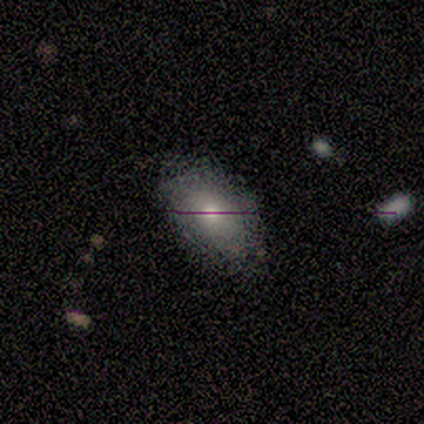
A smooth galaxy with no disk features (50%) that is in between round and cigar-shaped (100%).

Vote fractions:
- Smooth or featured? smooth: 50% / featured or disk: 33% / star or artifact: 17%
- How rounded? in between: 100% / round: 0% / cigar-shaped: 0%
- Merging? none: 60% / minor disturbance: 20% / merger: 20% / major disturbance: 0%